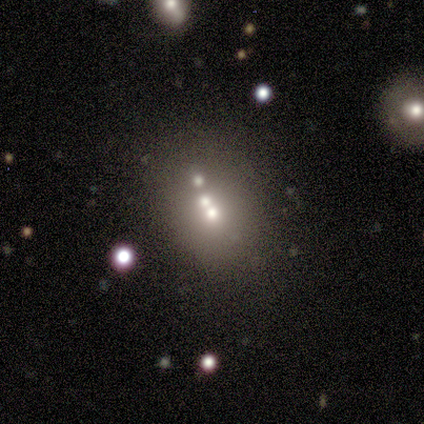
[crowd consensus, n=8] smooth_or_featured: smooth (p=0.50) [alt: featured or disk p=0.25]
how_rounded: in between (p=0.75) [alt: round p=0.25]
merging: none (p=0.67) [alt: merger p=0.33]